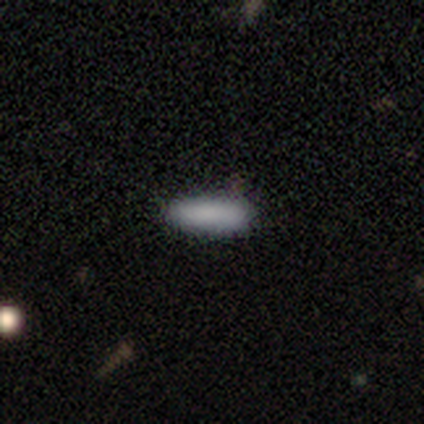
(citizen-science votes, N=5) Smooth or featured: smooth — 100%
How rounded: in between — 60% (cigar-shaped — 40%)
Merging: none — 100%